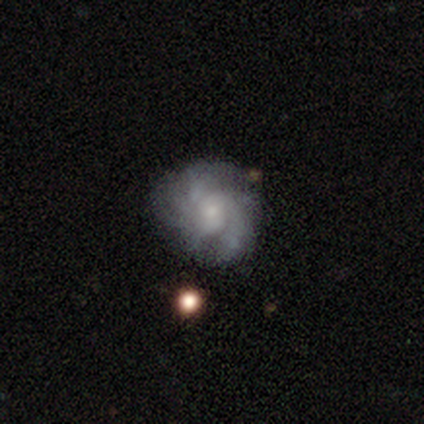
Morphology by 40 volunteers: Q: Smooth or featured?
A: featured or disk (70%); runner-up: smooth (22%)
Q: Edge-on disk?
A: no (100%)
Q: Bar?
A: no (86%); runner-up: weak (14%)
Q: Spiral arms?
A: yes (100%)
Q: Spiral winding?
A: medium (50%); runner-up: tight (36%)
Q: Spiral arm count?
A: can't tell (46%); runner-up: 3 (18%)
Q: Bulge size?
A: small (61%); runner-up: moderate (25%)
Q: Merging?
A: none (46%); runner-up: minor disturbance (16%)